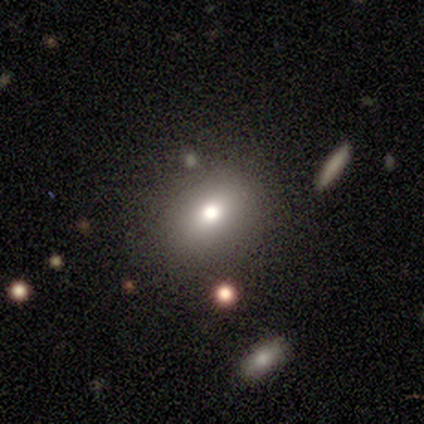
Overall: smooth (80%). How rounded: round (50%, tied with in between). Merging: none (50%; minor disturbance 25%).